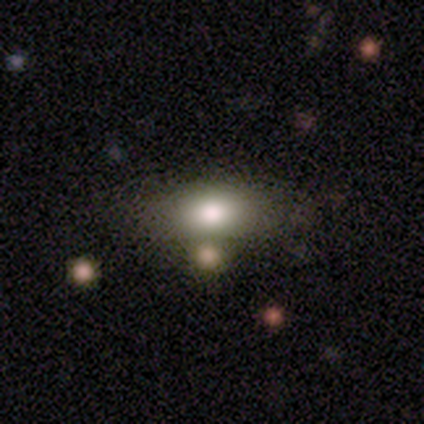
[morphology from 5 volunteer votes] A smooth galaxy with no disk features (100%) that is in between round and cigar-shaped (80%).

Vote fractions:
- Smooth or featured? smooth: 100% / featured or disk: 0% / star or artifact: 0%
- How rounded? in between: 80% / round: 20% / cigar-shaped: 0%
- Merging? none: 80% / merger: 20% / minor disturbance: 0% / major disturbance: 0%